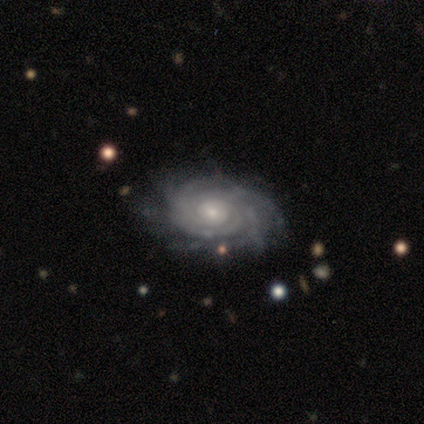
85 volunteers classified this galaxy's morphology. smooth_or_featured: featured or disk (p=0.87) [alt: smooth p=0.07]
disk_edge_on: no (p=0.95) [alt: yes p=0.05]
bar: no (p=0.80) [alt: weak p=0.16]
has_spiral_arms: yes (p=1.00)
spiral_winding: tight (p=0.79) [alt: medium p=0.19]
spiral_arm_count: more than 4 (p=0.36) [alt: can't tell p=0.27]
bulge_size: small (p=0.63) [alt: moderate p=0.37]
merging: none (p=0.79) [alt: minor disturbance p=0.12]